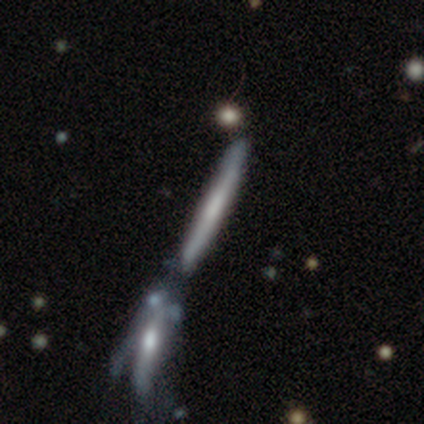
smooth-or-featured: featured or disk: 60% | smooth: 40% | star or artifact: 0%
  disk-edge-on: yes: 83% | no: 17%
    edge-on-bulge: rounded: 60% | none: 40% | boxy: 0%
  merging: merger: 50% | none: 20% | major disturbance: 20% | minor disturbance: 10%